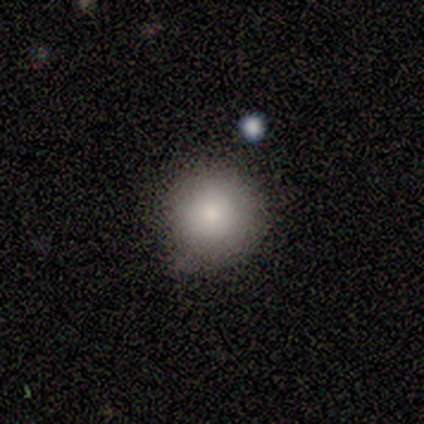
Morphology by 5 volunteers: A smooth galaxy with no disk features (100%) that is round (80%).

Vote fractions:
- Smooth or featured? smooth: 100% / featured or disk: 0% / star or artifact: 0%
- How rounded? round: 80% / in between: 20% / cigar-shaped: 0%
- Merging? none: 80% / minor disturbance: 20% / major disturbance: 0% / merger: 0%